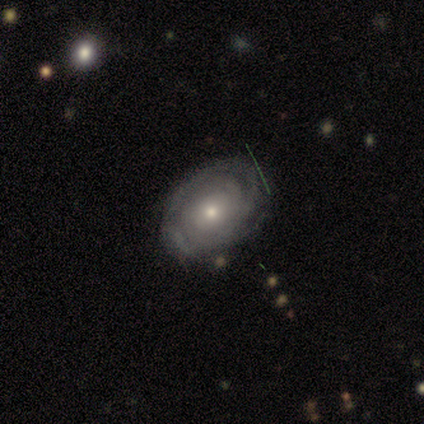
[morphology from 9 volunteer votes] Smooth or featured? featured or disk (100%)
Edge-on disk? no (89%)
Bar? no (62%)
Spiral arms? yes (100%)
Spiral winding? tight (75%)
Spiral arm count? can't tell (38%)
Bulge size? moderate (50%, tied with small)
Merging? minor disturbance (56%)